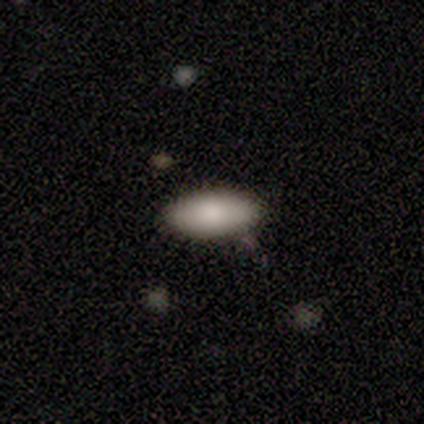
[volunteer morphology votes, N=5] Smooth or featured? 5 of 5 (100%) said smooth. How rounded? 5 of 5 (100%) said in between. Merging? 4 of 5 (80%) said none.